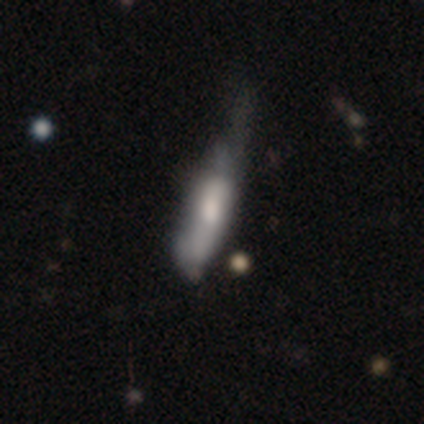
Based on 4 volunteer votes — smooth_or_featured: smooth (p=0.75) [alt: star or artifact p=0.25]
how_rounded: cigar-shaped (p=1.00)
merging: none (p=0.33) [tied with: minor disturbance p=0.33, major disturbance p=0.33]